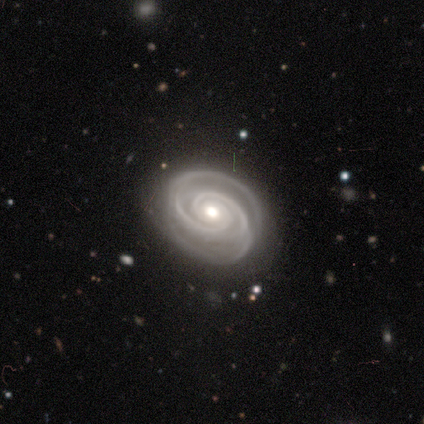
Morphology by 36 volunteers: Q: Smooth or featured?
A: featured or disk (94%); runner-up: smooth (3%)
Q: Edge-on disk?
A: no (97%); runner-up: yes (3%)
Q: Bar?
A: no (76%); runner-up: weak (15%)
Q: Spiral arms?
A: yes (100%)
Q: Spiral winding?
A: tight (82%); runner-up: medium (18%)
Q: Spiral arm count?
A: 2 (58%); runner-up: 3 (27%)
Q: Bulge size?
A: moderate (70%); runner-up: small (18%)
Q: Merging?
A: none (86%); runner-up: minor disturbance (11%)